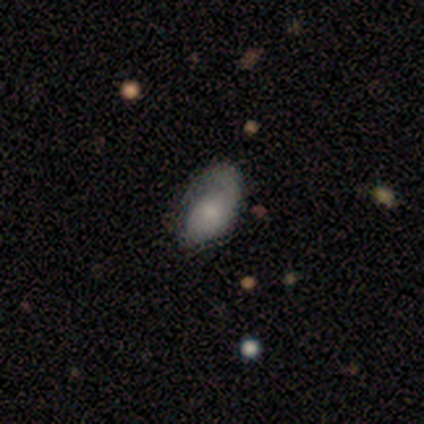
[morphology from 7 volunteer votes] Smooth or featured: featured or disk — 57% (smooth — 43%)
Edge-on disk: no — 75% (yes — 25%)
Bar: no — 67% (weak — 33%)
Spiral arms: yes — 100%
Spiral winding: tight — 67% (loose — 33%)
Spiral arm count: 1 — 67% (can't tell — 33%)
Bulge size: small — 67% (moderate — 33%)
Merging: none — 57% (minor disturbance — 29%)